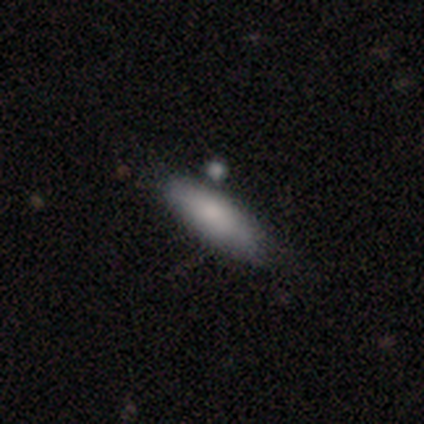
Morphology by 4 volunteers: A smooth galaxy with no disk features (100%) that is in between round and cigar-shaped (75%).

Vote fractions:
- Smooth or featured? smooth: 100% / featured or disk: 0% / star or artifact: 0%
- How rounded? in between: 75% / cigar-shaped: 25% / round: 0%
- Merging? none: 75% / minor disturbance: 25% / major disturbance: 0% / merger: 0%